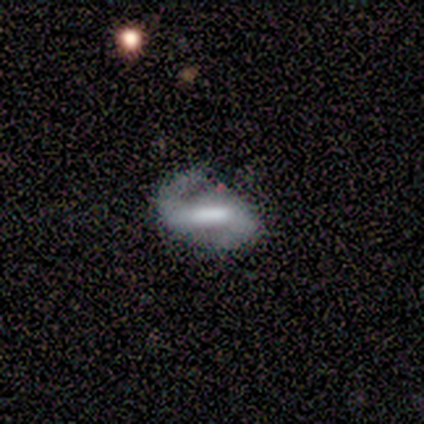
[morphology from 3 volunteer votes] A featured or disk galaxy (67%) with a strong bar (100%), 2 (100%) medium (100%) spiral arms (100%) and a moderate central bulge (50%, tied with none). Merging: none (50%, tied with minor disturbance).